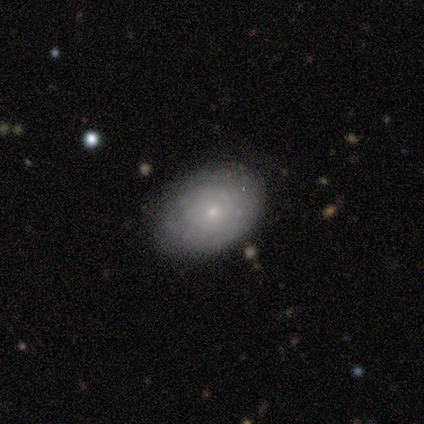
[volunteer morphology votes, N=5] A smooth galaxy with no disk features (60%) that is in between round and cigar-shaped (67%).

Vote fractions:
- Smooth or featured? smooth: 60% / featured or disk: 40% / star or artifact: 0%
- How rounded? in between: 67% / round: 33% / cigar-shaped: 0%
- Merging? none: 60% / minor disturbance: 40% / major disturbance: 0% / merger: 0%